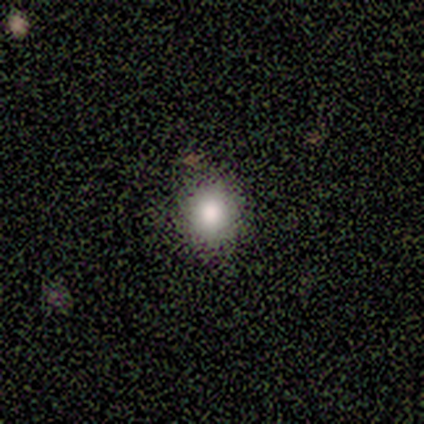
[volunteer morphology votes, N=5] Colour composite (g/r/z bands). It shows a smooth galaxy with no disk features (100%) that is round (100%). Merging: none (100%).